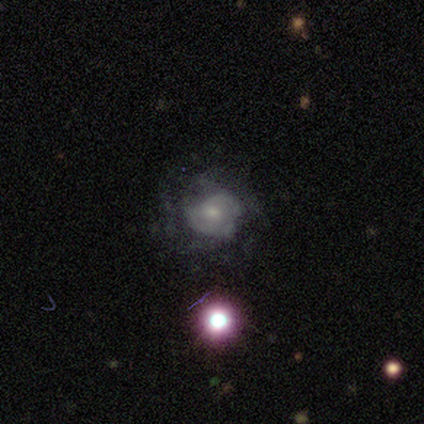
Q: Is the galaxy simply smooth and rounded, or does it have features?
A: smooth — 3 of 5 (60%).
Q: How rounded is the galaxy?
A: round — 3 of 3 (100%).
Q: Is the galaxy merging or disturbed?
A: major disturbance — 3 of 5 (60%).